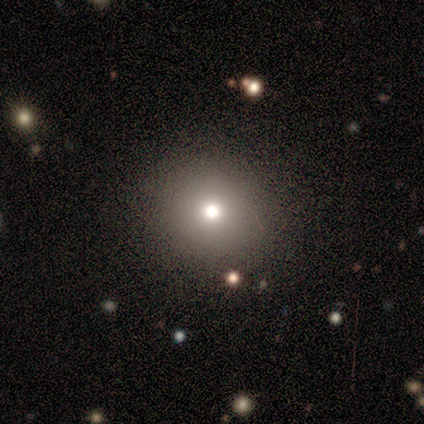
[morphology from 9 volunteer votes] Overall: smooth (56%; featured or disk 22%). How rounded: round (100%). Merging: none (86%).